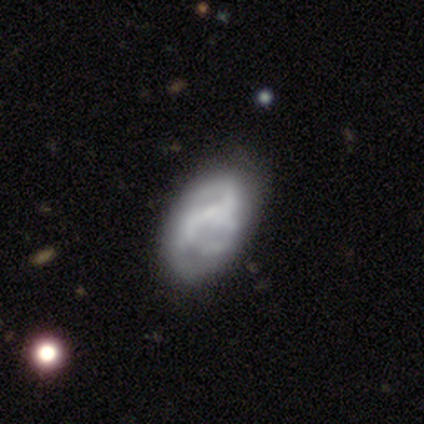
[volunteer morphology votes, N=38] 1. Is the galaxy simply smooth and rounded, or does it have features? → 58% featured or disk, 26% smooth, 16% star or artifact.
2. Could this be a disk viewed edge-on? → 100% no, 0% yes.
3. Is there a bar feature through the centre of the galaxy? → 77% no, 14% weak, 9% strong.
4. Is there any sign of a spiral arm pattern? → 50% yes (tied), 50% no (tied).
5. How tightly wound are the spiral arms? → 45% medium, 27% tight, 27% loose.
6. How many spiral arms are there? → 55% 2, 18% can't tell, 9% 1, 9% 3, 9% 4, 0% more than 4.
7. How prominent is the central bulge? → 73% none, 18% small, 5% dominant, 5% large, 0% moderate.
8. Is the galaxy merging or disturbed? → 66% none, 19% minor disturbance, 12% major disturbance, 3% merger.